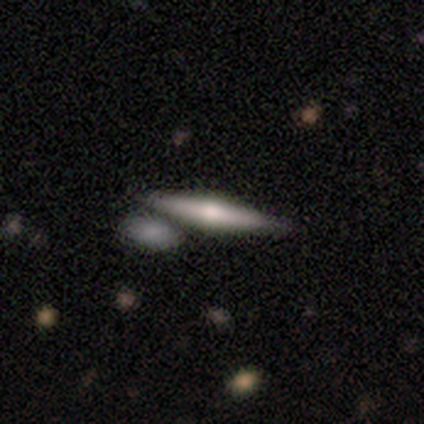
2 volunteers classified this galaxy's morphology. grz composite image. It shows a featured or disk galaxy (100%) viewed edge-on (100%) with a rounded central bulge (100%). Merging: none (100%).